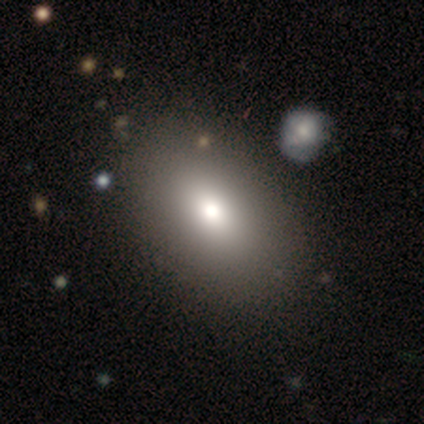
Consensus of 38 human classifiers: smooth 76%, star or artifact 13%, featured or disk 11%. Down the decision tree: how rounded — in between (83%); merging — none (55%).